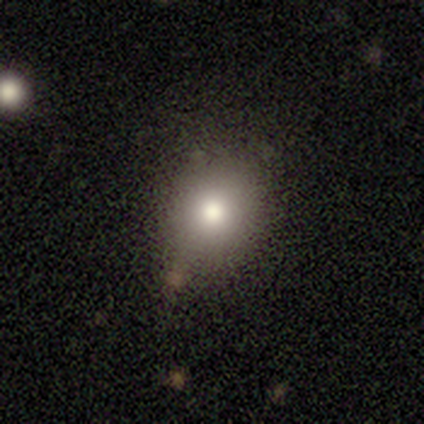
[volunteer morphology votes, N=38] A smooth galaxy with no disk features (74%) that is round (68%).

Vote fractions:
- Smooth or featured? smooth: 74% / featured or disk: 18% / star or artifact: 8%
- How rounded? round: 68% / in between: 32% / cigar-shaped: 0%
- Merging? none: 83% / minor disturbance: 14% / merger: 3% / major disturbance: 0%